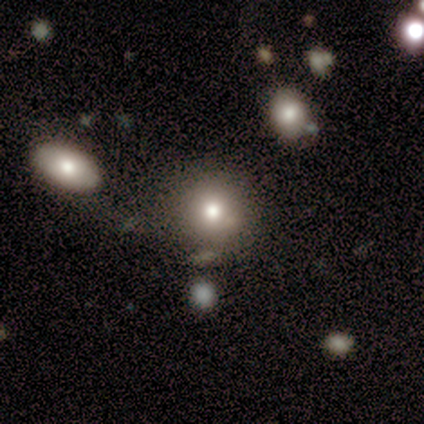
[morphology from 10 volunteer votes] A smooth galaxy with no disk features (80%) that is round (88%).

Vote fractions:
- Smooth or featured? smooth: 80% / featured or disk: 10% / star or artifact: 10%
- How rounded? round: 88% / in between: 12% / cigar-shaped: 0%
- Merging? none: 67% / minor disturbance: 33% / major disturbance: 0% / merger: 0%